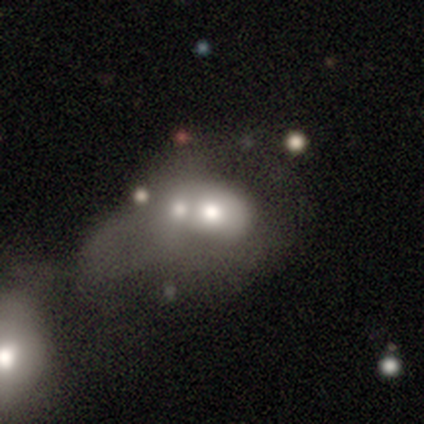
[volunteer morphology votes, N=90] smooth 60%, featured or disk 29%, star or artifact 11%. Down the decision tree: how rounded — in between (65%); merging — merger (66%).